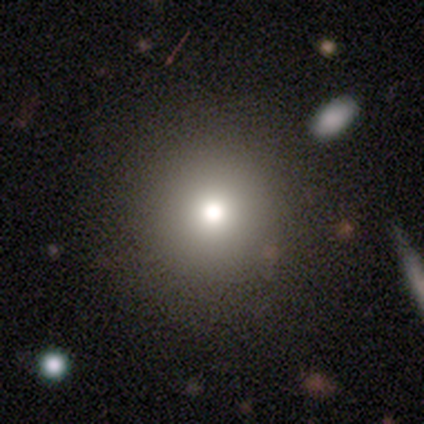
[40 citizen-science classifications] Overall: smooth (75%). How rounded: round (100%). Merging: none (54%).